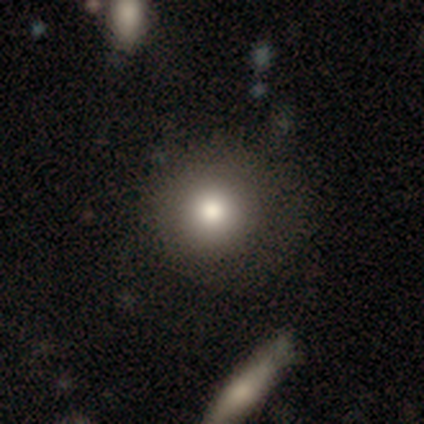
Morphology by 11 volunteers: smooth_or_featured: smooth (p=0.82) [alt: featured or disk p=0.09]
how_rounded: round (p=1.00)
merging: none (p=0.90) [alt: minor disturbance p=0.10]